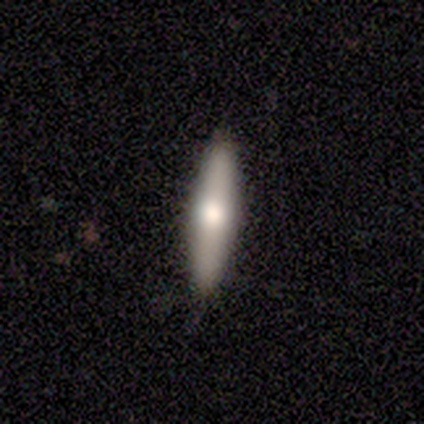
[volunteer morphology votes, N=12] This appears to be a smooth galaxy with no disk features (42%, tied with featured or disk) that is in between round and cigar-shaped (60%). Merging: none (100%).